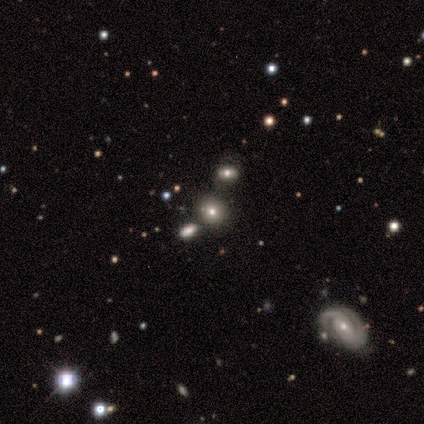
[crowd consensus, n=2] This appears to be a smooth galaxy with no disk features (50%, tied with featured or disk) that is round (100%). Merging: none (100%).